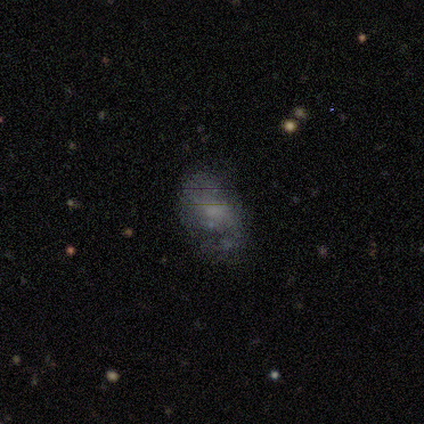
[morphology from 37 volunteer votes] A featured or disk galaxy (59%) with no bar (73%), 2 (44%) loose (61%) spiral arms (82%) and no central bulge (41%). Merging: none (53%).